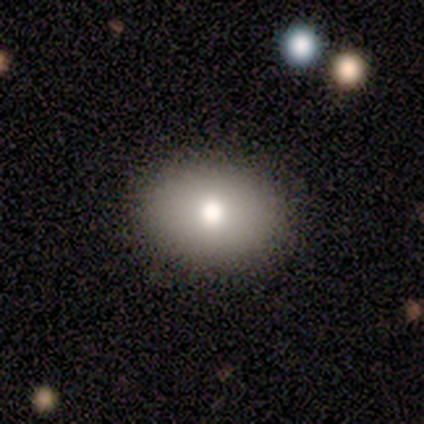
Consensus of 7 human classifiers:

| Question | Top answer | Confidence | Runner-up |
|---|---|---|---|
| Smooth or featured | smooth | 71% | featured or disk (14%) |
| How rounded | in between | 80% | round (20%) |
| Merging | none | 100% | — |